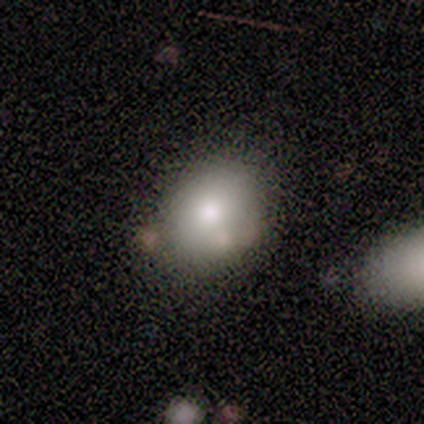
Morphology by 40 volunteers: Smooth or featured: smooth — 82% (featured or disk — 15%)
How rounded: round — 61% (in between — 39%)
Merging: none — 74% (minor disturbance — 10%)